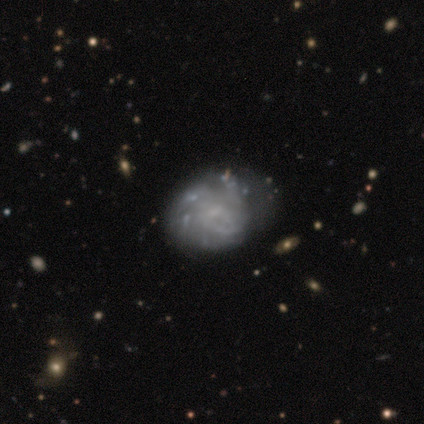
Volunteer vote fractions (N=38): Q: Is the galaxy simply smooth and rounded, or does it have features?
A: featured or disk — 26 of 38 (68%).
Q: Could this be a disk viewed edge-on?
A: no — 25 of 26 (96%).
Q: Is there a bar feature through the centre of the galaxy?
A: no — 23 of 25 (92%).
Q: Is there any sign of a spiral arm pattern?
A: yes — 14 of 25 (56%).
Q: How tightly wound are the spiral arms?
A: tight — 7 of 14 (50%).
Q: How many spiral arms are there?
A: can't tell — 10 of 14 (71%).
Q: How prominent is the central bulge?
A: none — 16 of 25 (64%).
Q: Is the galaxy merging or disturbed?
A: none — 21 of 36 (58%).